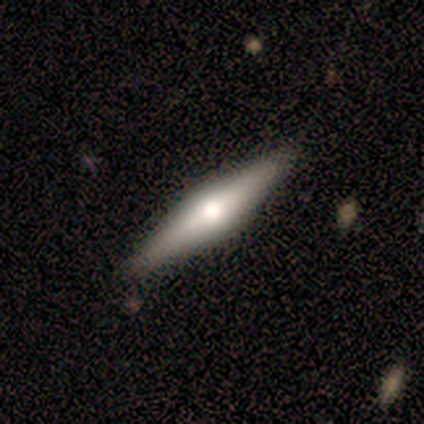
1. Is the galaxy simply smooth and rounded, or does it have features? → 60% featured or disk, 40% smooth, 0% star or artifact.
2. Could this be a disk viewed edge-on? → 100% yes, 0% no.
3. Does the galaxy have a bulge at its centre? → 100% rounded, 0% boxy, 0% none.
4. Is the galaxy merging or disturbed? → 80% none, 20% minor disturbance, 0% major disturbance, 0% merger.